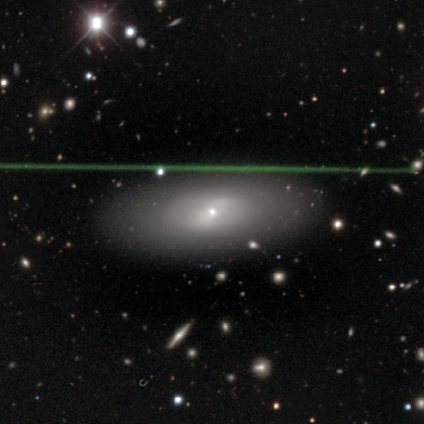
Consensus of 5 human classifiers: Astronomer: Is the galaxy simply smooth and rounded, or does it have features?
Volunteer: smooth — 40%, tied with star or artifact at 40%.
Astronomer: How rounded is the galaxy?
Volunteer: in between — 100%.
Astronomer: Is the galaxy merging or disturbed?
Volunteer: none — 67%.